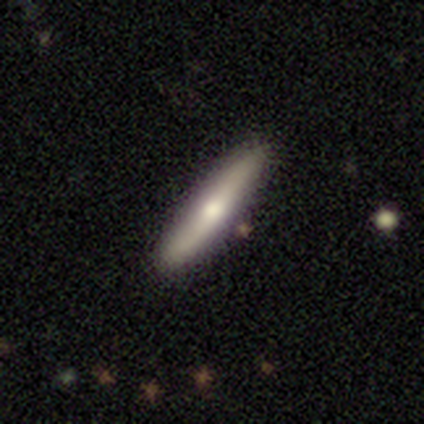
This is likely a smooth galaxy (60%). How rounded: clearly cigar-shaped (100%). Merging: clearly none (80%).